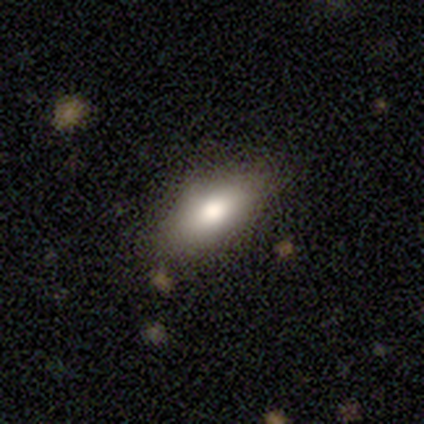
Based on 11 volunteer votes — Q: Smooth or featured?
A: smooth (73%); runner-up: featured or disk (18%)
Q: How rounded?
A: in between (100%)
Q: Merging?
A: none (100%)